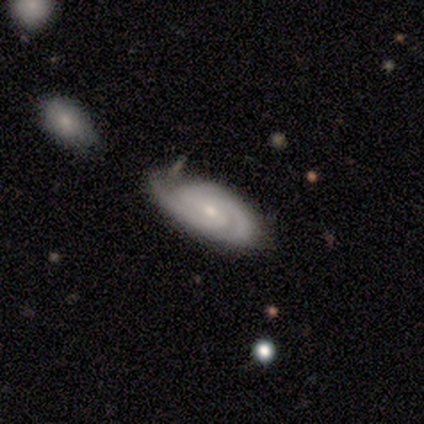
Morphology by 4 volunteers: featured or disk 100%, smooth 0%, star or artifact 0%. Down the decision tree: edge-on disk — no (75%); bar — strong (33%, tied with weak and no); spiral arms — yes (100%); spiral arm count — 2 (33%, tied with 3 and can't tell); spiral winding — tight (67%); bulge size — small (67%); merging — none (50%, tied with minor disturbance).